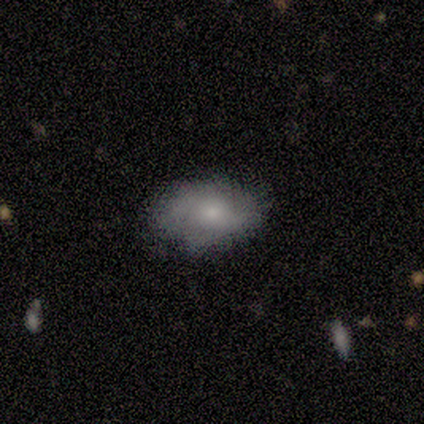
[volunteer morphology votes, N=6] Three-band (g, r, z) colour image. It shows a smooth galaxy with no disk features (50%, tied with featured or disk) that is in between round and cigar-shaped (100%). Merging: none (100%).